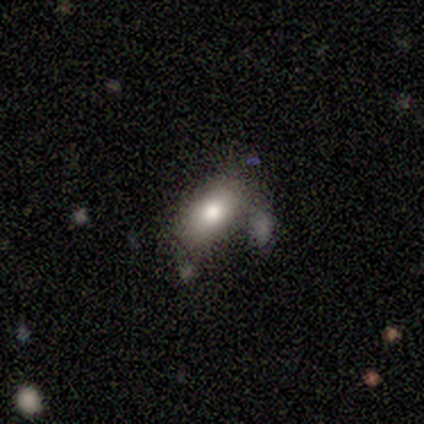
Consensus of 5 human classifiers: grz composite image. It shows a smooth galaxy with no disk features (100%) that is in between round and cigar-shaped (100%). Merging: none (60%).